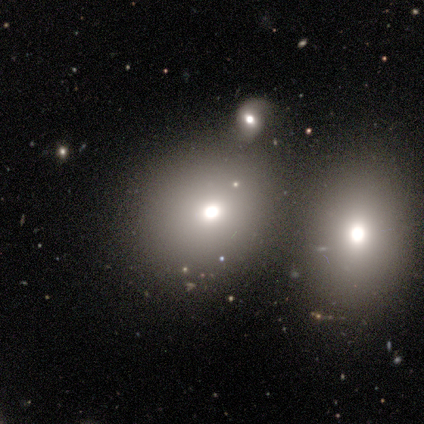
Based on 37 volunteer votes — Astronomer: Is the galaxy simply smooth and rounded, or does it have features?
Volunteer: smooth — 78%.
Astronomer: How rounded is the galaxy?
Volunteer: round — 79%.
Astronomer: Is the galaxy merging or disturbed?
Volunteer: none — 60%.